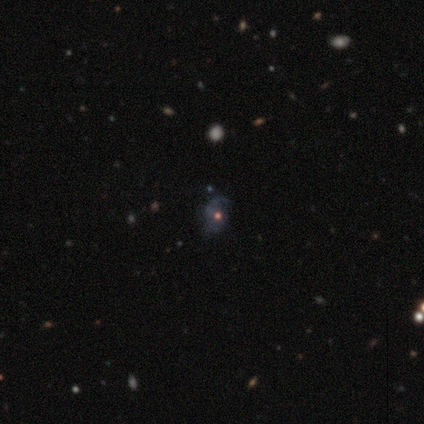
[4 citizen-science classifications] Overall: featured or disk (75%). Edge-on disk: no (100%). Bar: no (100%). Spiral arms: yes (67%; no 33%). Spiral arm count: 1 (50%, tied with can't tell). Spiral winding: tight (50%, tied with loose). Bulge size: moderate (33%, tied with small and none). Merging: none (100%).